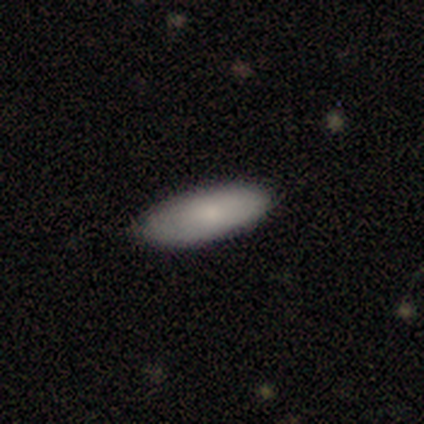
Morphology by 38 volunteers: Smooth or featured?
  - smooth: 84% *
  - featured or disk: 13%
  - star or artifact: 3%
How rounded?
  - in between: 84% *
  - cigar-shaped: 16%
  - round: 0%
Merging?
  - none: 86% *
  - minor disturbance: 14%
  - major disturbance: 0%
  - merger: 0%